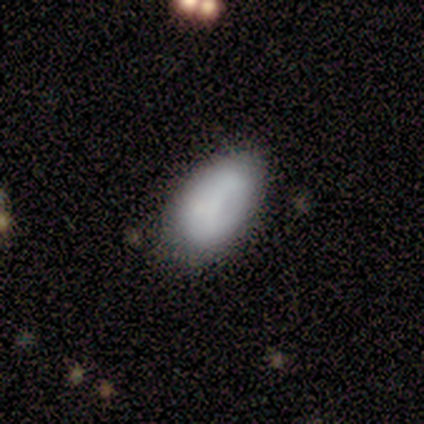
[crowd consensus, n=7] A smooth galaxy with no disk features (57%) that is in between round and cigar-shaped (100%). Merging: none (71%).